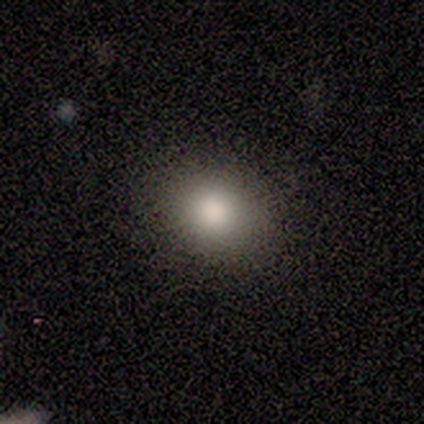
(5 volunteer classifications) A smooth galaxy with no disk features (80%) that is round (50%, tied with in between). Merging: none (75%).